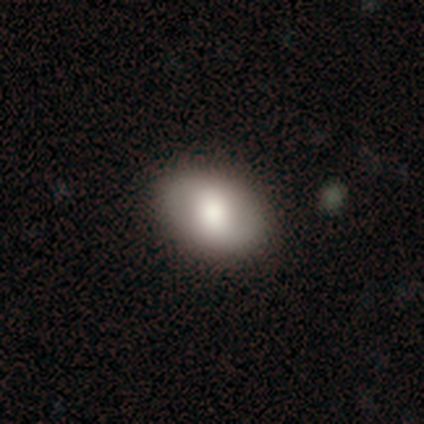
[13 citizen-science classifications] Smooth or featured: smooth — 85% (featured or disk — 8%)
How rounded: in between — 91% (round — 9%)
Merging: none — 100%